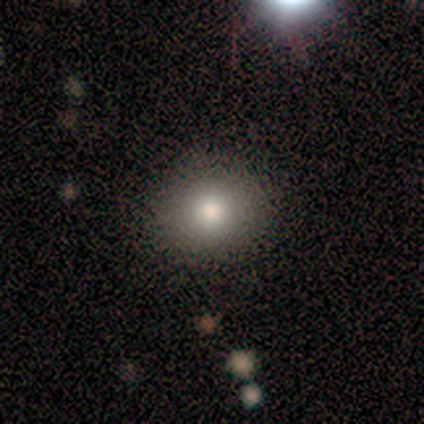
Volunteers were most divided on "how rounded": round: 60%, in between: 40%, cigar-shaped: 0%. More confident: smooth or featured — smooth (100%); merging — none (100%).